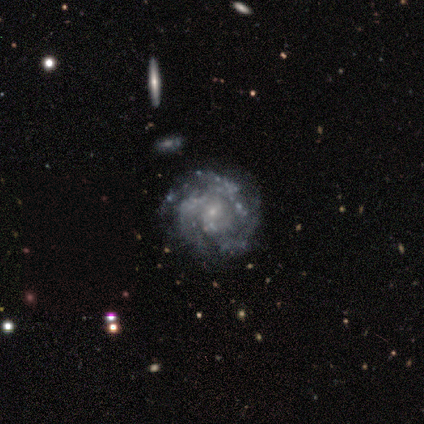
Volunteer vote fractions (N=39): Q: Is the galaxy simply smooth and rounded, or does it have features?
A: featured or disk — 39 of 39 (100%).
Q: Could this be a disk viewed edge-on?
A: no — 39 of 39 (100%).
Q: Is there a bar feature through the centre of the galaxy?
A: no — 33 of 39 (85%).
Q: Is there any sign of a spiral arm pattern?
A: yes — 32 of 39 (82%).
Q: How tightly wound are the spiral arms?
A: tight — 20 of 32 (62%).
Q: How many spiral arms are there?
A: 3 — 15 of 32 (47%).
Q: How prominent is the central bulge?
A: small — 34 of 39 (87%).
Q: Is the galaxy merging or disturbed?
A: none — 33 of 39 (85%).